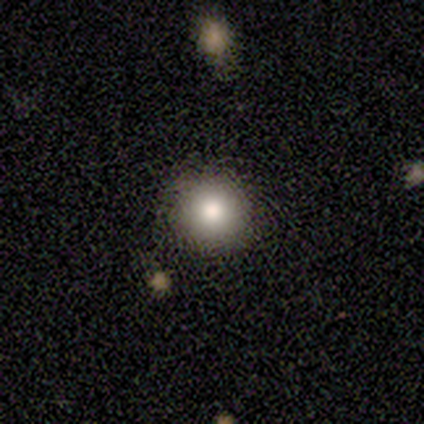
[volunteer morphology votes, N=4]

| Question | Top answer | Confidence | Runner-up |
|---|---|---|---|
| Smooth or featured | smooth | 75% | featured or disk (25%) |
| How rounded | round | 100% | — |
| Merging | none | 100% | — |